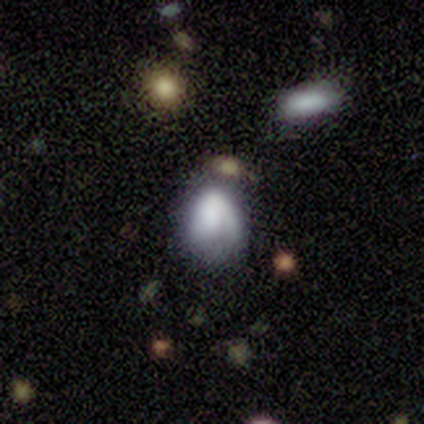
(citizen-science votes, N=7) Overall: smooth (57%; featured or disk 43%). How rounded: in between (50%; round 25%). Merging: none (57%; major disturbance 29%).